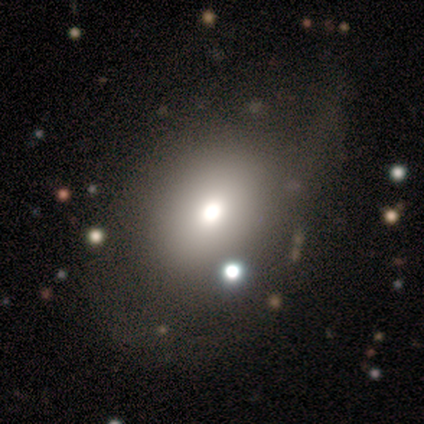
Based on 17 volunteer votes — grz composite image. It shows a smooth galaxy with no disk features (65%) that is in between round and cigar-shaped (64%). Merging: none (69%).